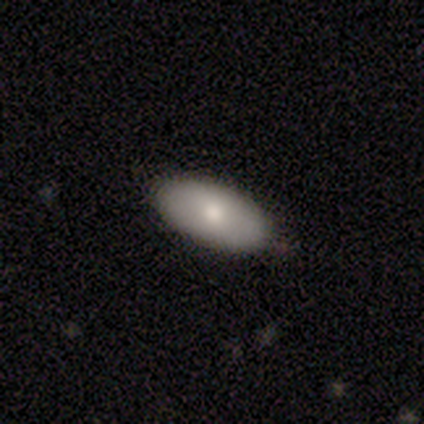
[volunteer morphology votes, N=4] Q: Smooth or featured?
A: smooth (100%)
Q: How rounded?
A: in between (100%)
Q: Merging?
A: none (100%)